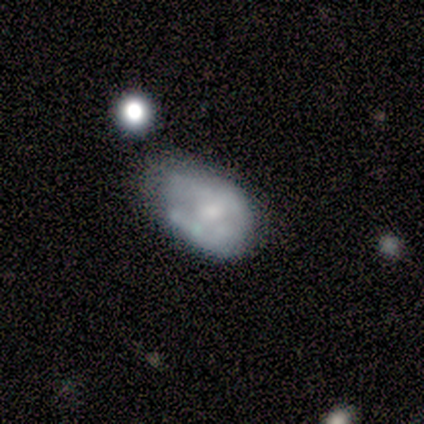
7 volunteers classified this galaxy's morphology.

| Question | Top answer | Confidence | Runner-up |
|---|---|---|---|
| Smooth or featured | smooth | 57% | featured or disk (43%) |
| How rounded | in between | 75% | round (25%) |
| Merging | minor disturbance | 43% | none (29%) |